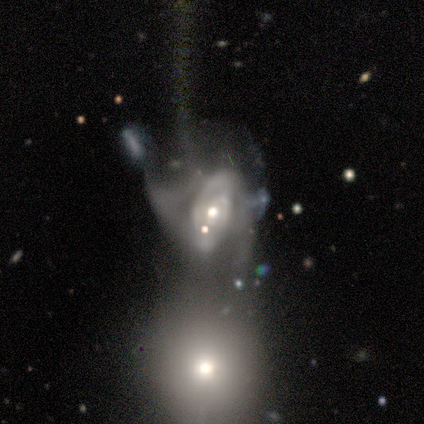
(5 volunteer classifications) Overall: featured or disk (80%). Edge-on disk: no (100%). Bar: no (75%). Spiral arms: yes (75%). Spiral arm count: 2 (67%; can't tell 33%). Spiral winding: medium (100%). Bulge size: moderate (100%). Merging: merger (60%; major disturbance 40%).